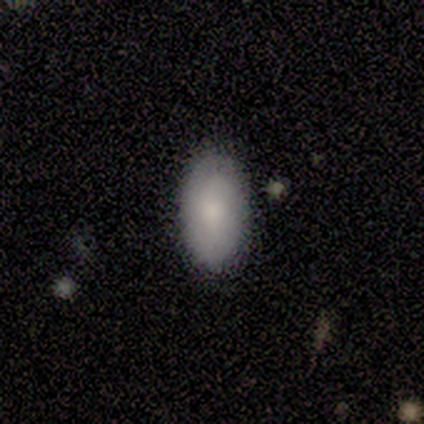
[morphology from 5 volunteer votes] A smooth galaxy with no disk features (80%) that is in between round and cigar-shaped (100%).

Vote fractions:
- Smooth or featured? smooth: 80% / featured or disk: 20% / star or artifact: 0%
- How rounded? in between: 100% / round: 0% / cigar-shaped: 0%
- Merging? none: 80% / minor disturbance: 20% / major disturbance: 0% / merger: 0%